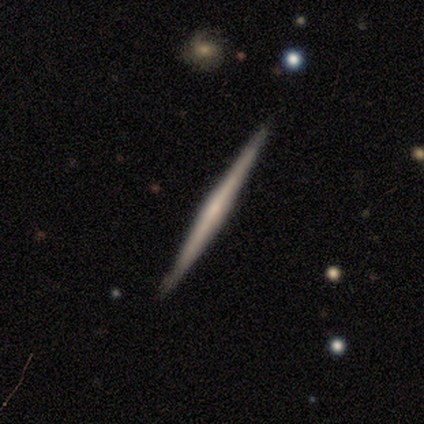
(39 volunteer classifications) smooth_or_featured: featured or disk (p=0.74) [alt: smooth p=0.15]
disk_edge_on: yes (p=0.93) [alt: no p=0.07]
edge_on_bulge: none (p=0.56) [alt: rounded p=0.41]
merging: none (p=0.91) [alt: minor disturbance p=0.09]